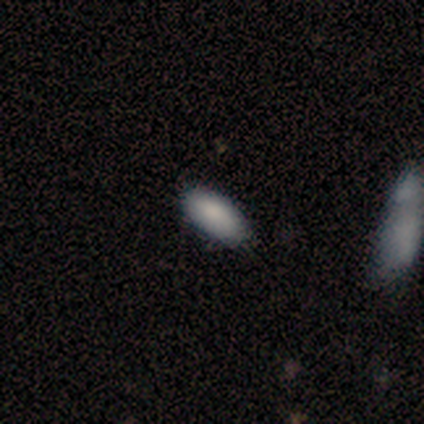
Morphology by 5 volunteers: Overall: smooth (80%). How rounded: in between (100%). Merging: minor disturbance (60%; none 40%).